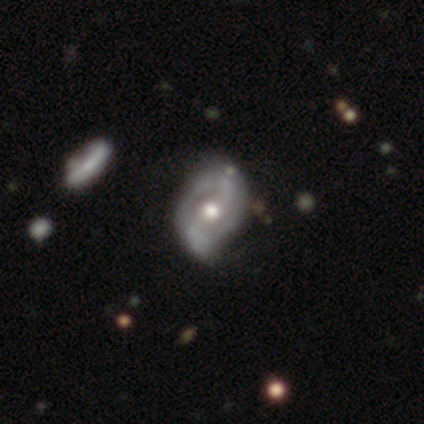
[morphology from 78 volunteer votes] Q: Smooth or featured?
A: featured or disk (94%); runner-up: smooth (5%)
Q: Edge-on disk?
A: no (99%); runner-up: yes (1%)
Q: Bar?
A: no (54%); runner-up: weak (31%)
Q: Spiral arms?
A: yes (85%); runner-up: no (15%)
Q: Spiral winding?
A: medium (36%); runner-up: loose (34%)
Q: Spiral arm count?
A: 2 (69%); runner-up: can't tell (23%)
Q: Bulge size?
A: moderate (71%); runner-up: large (17%)
Q: Merging?
A: none (27%); runner-up: minor disturbance (21%)